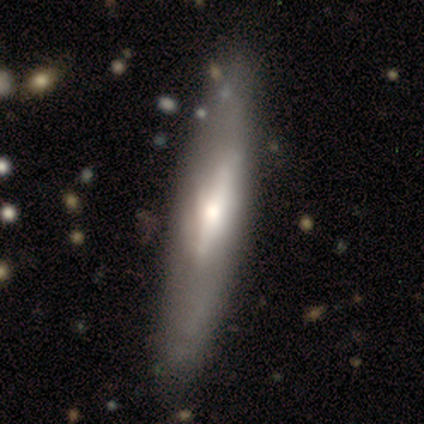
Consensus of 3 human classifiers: Q: Smooth or featured?
A: featured or disk (67%); runner-up: smooth (33%)
Q: Edge-on disk?
A: yes (100%)
Q: Edge-on bulge?
A: none (50%); tied with: rounded (50%)
Q: Merging?
A: none (67%); runner-up: minor disturbance (33%)